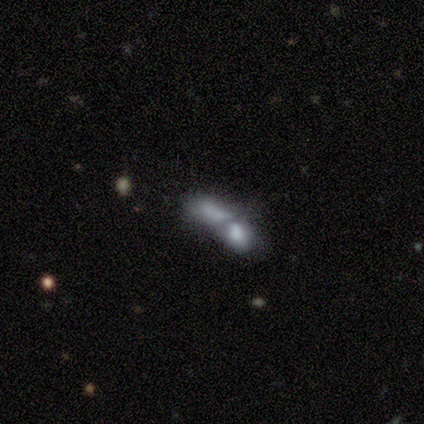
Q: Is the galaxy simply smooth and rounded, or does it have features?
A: smooth — 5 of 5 (100%).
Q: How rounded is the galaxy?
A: cigar-shaped — 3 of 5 (60%).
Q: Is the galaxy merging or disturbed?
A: merger — 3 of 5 (60%).